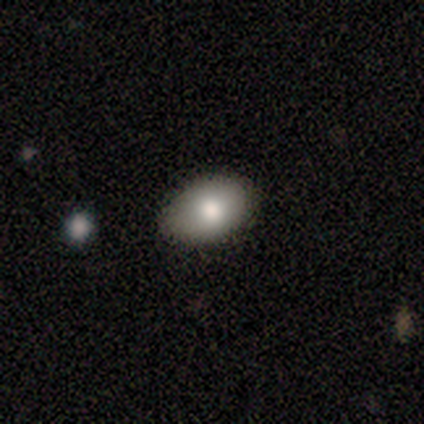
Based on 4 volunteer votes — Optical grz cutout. It shows a smooth galaxy with no disk features (75%) that is in between round and cigar-shaped (100%). Merging: none (100%).